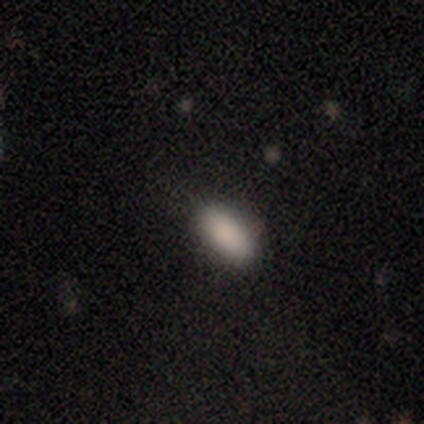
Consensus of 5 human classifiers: This is clearly a smooth galaxy (100%). How rounded: clearly in between (80%). Merging: clearly none (100%).